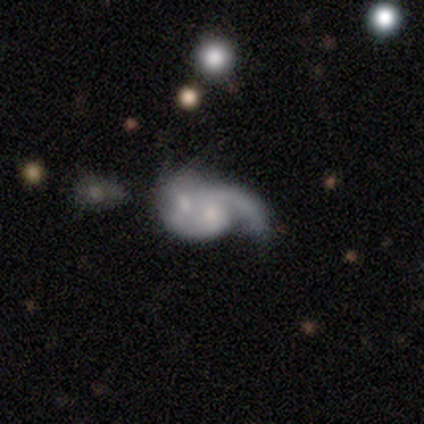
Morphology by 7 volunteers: Q: Smooth or featured?
A: featured or disk (71%); runner-up: smooth (29%)
Q: Edge-on disk?
A: no (100%)
Q: Bar?
A: no (60%); runner-up: weak (40%)
Q: Spiral arms?
A: yes (60%); runner-up: no (40%)
Q: Spiral winding?
A: tight (33%); tied with: medium (33%); loose (33%)
Q: Spiral arm count?
A: 2 (67%); runner-up: 1 (33%)
Q: Bulge size?
A: moderate (80%); runner-up: large (20%)
Q: Merging?
A: merger (86%); runner-up: none (14%)